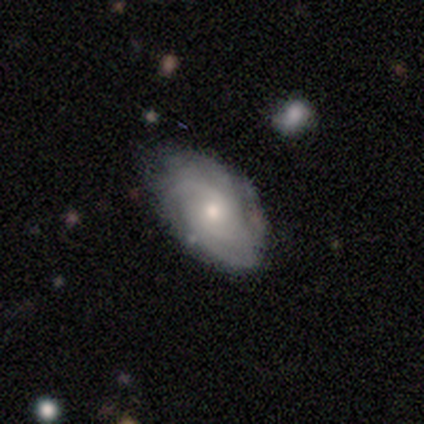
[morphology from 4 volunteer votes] Q: Smooth or featured?
A: featured or disk (75%); runner-up: smooth (25%)
Q: Edge-on disk?
A: no (67%); runner-up: yes (33%)
Q: Bar?
A: no (100%)
Q: Spiral arms?
A: yes (100%)
Q: Spiral winding?
A: tight (50%); tied with: medium (50%)
Q: Spiral arm count?
A: can't tell (100%)
Q: Bulge size?
A: small (100%)
Q: Merging?
A: none (75%); runner-up: minor disturbance (25%)